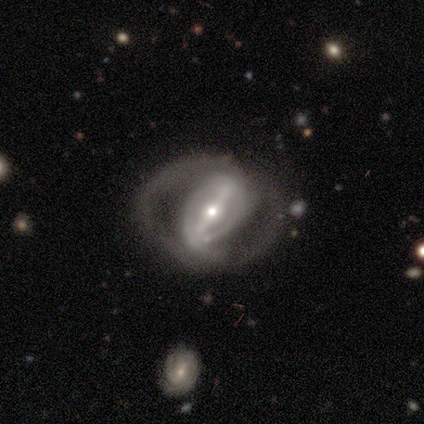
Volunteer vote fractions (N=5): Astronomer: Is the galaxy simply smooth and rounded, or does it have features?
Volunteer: featured or disk — 100%.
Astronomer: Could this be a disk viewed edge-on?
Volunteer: no — 100%.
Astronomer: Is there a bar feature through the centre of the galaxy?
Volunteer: strong — 80%.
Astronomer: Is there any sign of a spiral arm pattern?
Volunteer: yes — 80%.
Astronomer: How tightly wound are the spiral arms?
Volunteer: tight — 50%, tied with loose at 50%.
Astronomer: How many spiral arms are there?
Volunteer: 2 — 75%.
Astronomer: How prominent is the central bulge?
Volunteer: moderate — 60% (runner-up: small, 40%).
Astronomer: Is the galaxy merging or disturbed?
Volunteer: none — 80%.